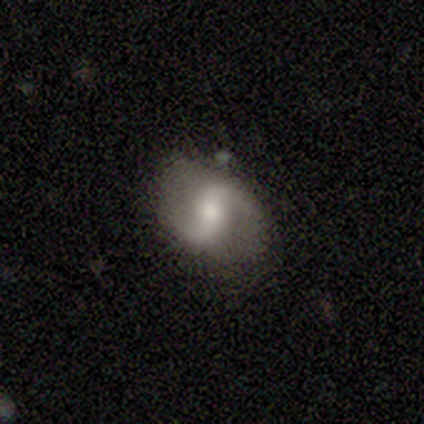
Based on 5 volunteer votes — Smooth or featured?
  - featured or disk: 100% *
  - smooth: 0%
  - star or artifact: 0%
Edge-on disk?
  - no: 100% *
  - yes: 0%
Bar?
  - strong: 60% *
  - weak: 20%
  - no: 20%
Spiral arms?
  - yes: 100% *
  - no: 0%
Spiral winding?
  - loose: 100% *
  - tight: 0%
  - medium: 0%
Spiral arm count?
  - 2: 100% *
  - 1: 0%
  - 3: 0%
  - 4: 0%
  - more than 4: 0%
  - can't tell: 0%
Bulge size?
  - small: 80% *
  - moderate: 20%
  - dominant: 0%
  - large: 0%
  - none: 0%
Merging?
  - none: 60% *
  - minor disturbance: 20%
  - merger: 20%
  - major disturbance: 0%